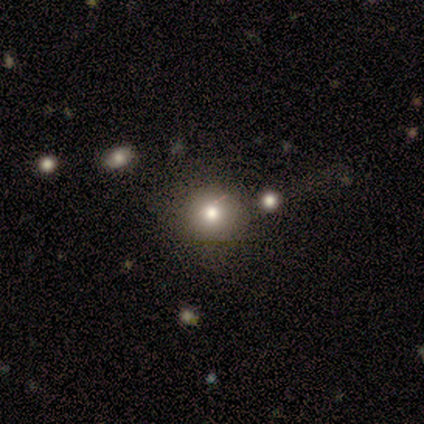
Smooth or featured: smooth — 71% (star or artifact — 29%)
How rounded: round — 80% (in between — 20%)
Merging: none — 40% (minor disturbance — 20%)